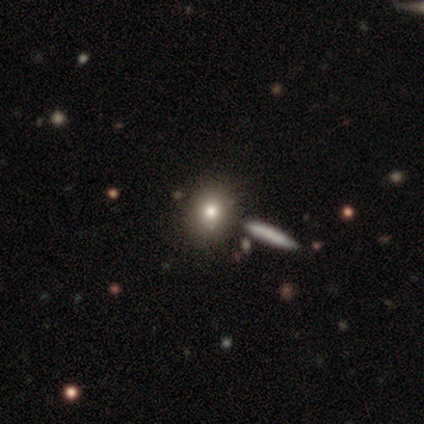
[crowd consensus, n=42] This is possibly a smooth galaxy (60%). How rounded: likely round (72%). Merging: likely none (65%).